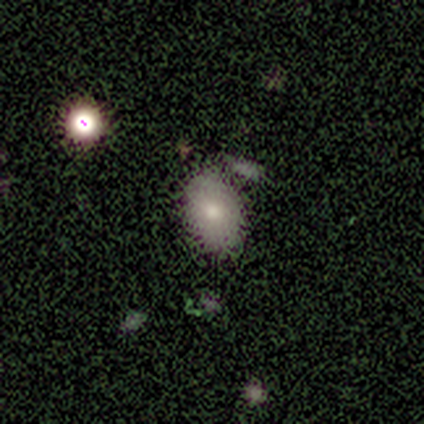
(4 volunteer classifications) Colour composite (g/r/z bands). It shows a smooth galaxy with no disk features (75%) that is round (67%). Merging: none (67%).